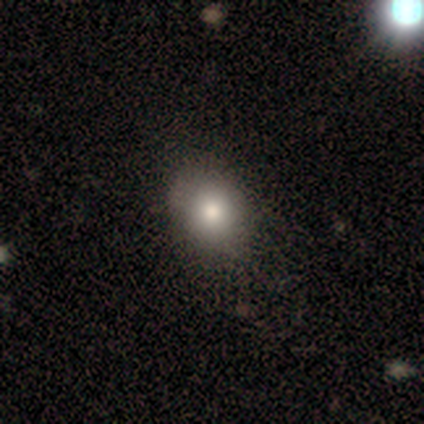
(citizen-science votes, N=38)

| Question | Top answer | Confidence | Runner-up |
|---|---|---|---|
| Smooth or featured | smooth | 76% | featured or disk (16%) |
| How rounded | in between | 59% | round (41%) |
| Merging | none | 60% | minor disturbance (3%) |